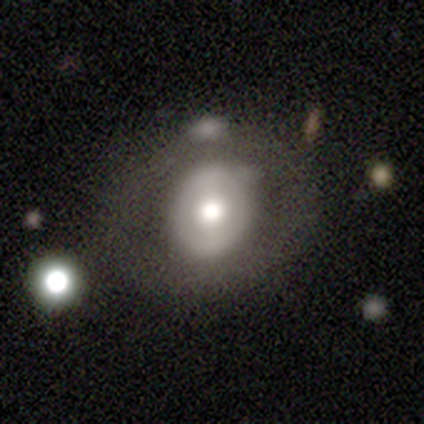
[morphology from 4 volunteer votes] smooth 50%, featured or disk 25%, star or artifact 25%. Down the decision tree: how rounded — round (50%, tied with in between); merging — none (67%).